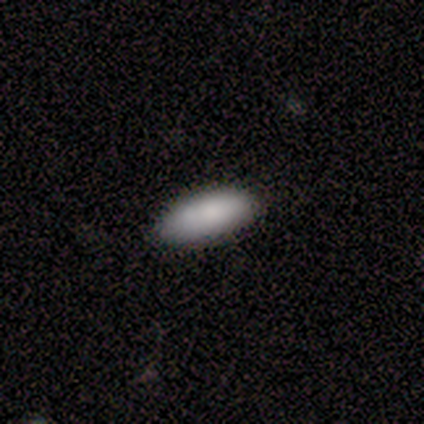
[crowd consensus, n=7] Smooth or featured? smooth (100%)
How rounded? in between (100%)
Merging? none (71%)